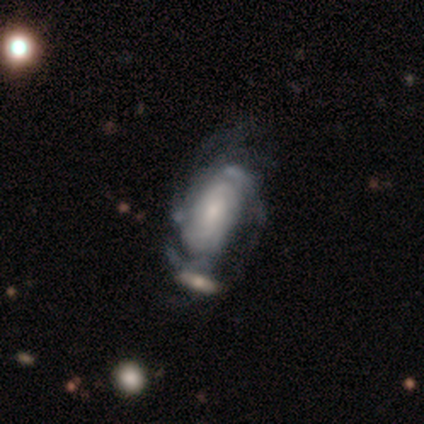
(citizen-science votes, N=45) This appears to be a featured or disk galaxy (87%) with no bar (84%), tight (56%) spiral arms (92%) and a small central bulge (46%). Merging: none (37%).